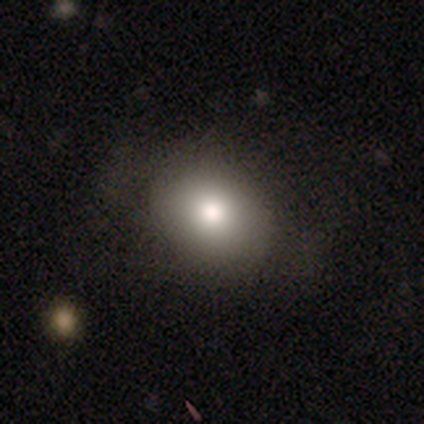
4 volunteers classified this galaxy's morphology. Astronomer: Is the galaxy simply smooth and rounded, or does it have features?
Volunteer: smooth — 75%.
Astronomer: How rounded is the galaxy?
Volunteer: round — 67%.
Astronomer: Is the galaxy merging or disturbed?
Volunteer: none — 75%.